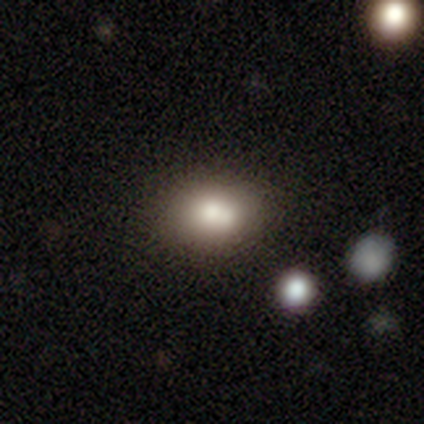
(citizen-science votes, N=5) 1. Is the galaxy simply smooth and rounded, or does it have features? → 80% smooth, 20% featured or disk, 0% star or artifact.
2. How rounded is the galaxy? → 100% in between, 0% round, 0% cigar-shaped.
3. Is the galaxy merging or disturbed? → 60% none, 20% minor disturbance, 20% merger, 0% major disturbance.